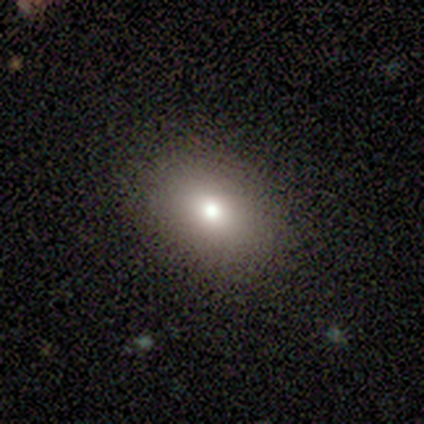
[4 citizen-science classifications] Q: Smooth or featured?
A: smooth (100%)
Q: How rounded?
A: in between (100%)
Q: Merging?
A: none (100%)